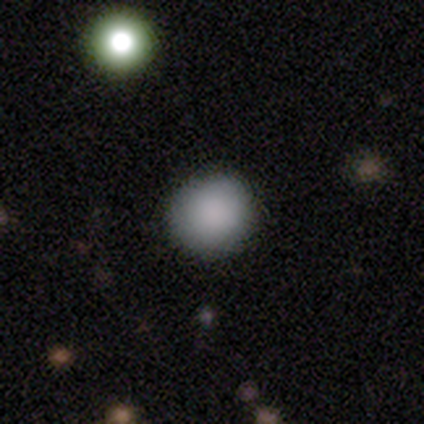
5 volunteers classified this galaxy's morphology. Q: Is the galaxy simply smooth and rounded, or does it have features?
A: smooth — 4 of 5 (80%).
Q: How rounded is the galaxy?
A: round — 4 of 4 (100%).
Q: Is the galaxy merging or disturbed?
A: none — 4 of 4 (100%).